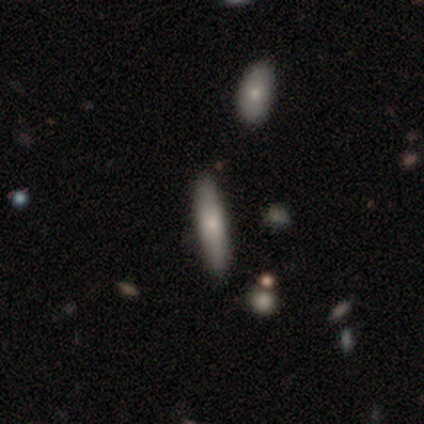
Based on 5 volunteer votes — This appears to be a smooth galaxy with no disk features (40%, tied with star or artifact) that is in between round and cigar-shaped (50%, tied with cigar-shaped). Merging: none (67%).